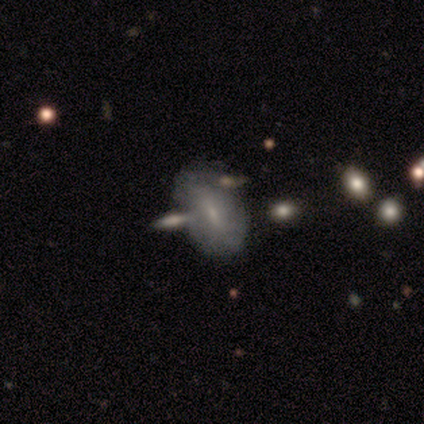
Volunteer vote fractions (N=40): Q: Smooth or featured?
A: smooth (50%); runner-up: featured or disk (42%)
Q: How rounded?
A: in between (95%); runner-up: cigar-shaped (5%)
Q: Merging?
A: none (49%); runner-up: minor disturbance (24%)